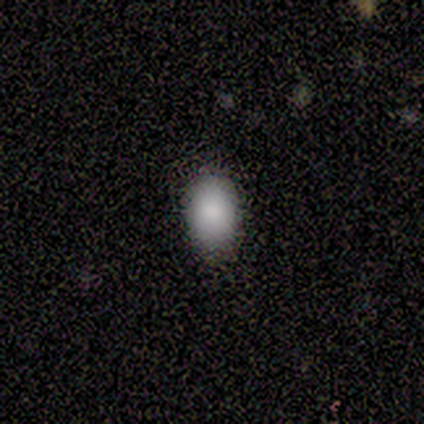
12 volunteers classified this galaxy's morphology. smooth-or-featured: smooth: 100% | featured or disk: 0% | star or artifact: 0%
  how-rounded: in between: 100% | round: 0% | cigar-shaped: 0%
  merging: none: 75% | minor disturbance: 25% | major disturbance: 0% | merger: 0%